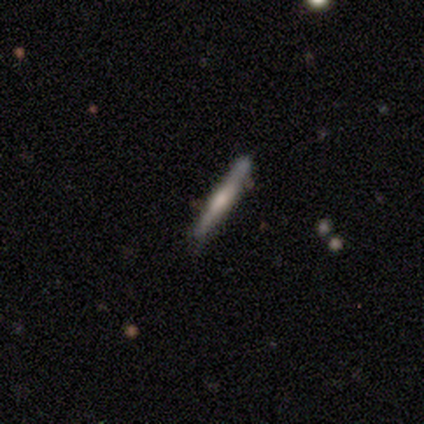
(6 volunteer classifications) smooth_or_featured: smooth (p=0.50) [tied with: featured or disk p=0.50]
how_rounded: cigar-shaped (p=1.00)
merging: none (p=0.67) [alt: minor disturbance p=0.33]